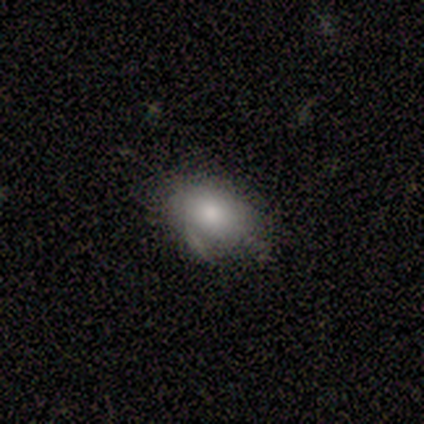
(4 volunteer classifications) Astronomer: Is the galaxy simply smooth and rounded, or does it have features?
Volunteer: smooth — 50%.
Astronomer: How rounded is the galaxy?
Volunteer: round — 100%.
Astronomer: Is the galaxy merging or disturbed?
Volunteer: none — 33%, tied with minor disturbance and major disturbance at 33%.